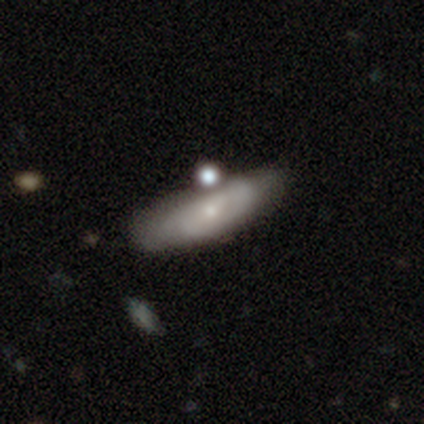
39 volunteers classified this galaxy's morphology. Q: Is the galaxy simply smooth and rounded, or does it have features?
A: featured or disk — 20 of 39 (51%).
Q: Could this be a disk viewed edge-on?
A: no — 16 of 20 (80%).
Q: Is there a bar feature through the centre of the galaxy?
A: no — 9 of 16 (56%).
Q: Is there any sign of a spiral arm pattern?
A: yes — 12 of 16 (75%).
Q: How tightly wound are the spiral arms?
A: tight — 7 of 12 (58%).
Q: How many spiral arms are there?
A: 2 — 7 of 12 (58%).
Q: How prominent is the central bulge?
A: small — 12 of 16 (75%).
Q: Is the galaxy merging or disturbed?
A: none — 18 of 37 (49%).